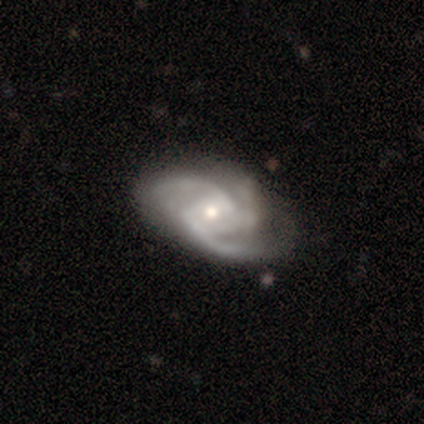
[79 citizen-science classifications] Overall: featured or disk (96%). Edge-on disk: no (97%). Bar: no (51%; weak 38%). Spiral arms: yes (100%). Spiral arm count: 3 (72%). Spiral winding: medium (59%; tight 22%). Bulge size: small (54%; moderate 42%). Merging: none (41%; minor disturbance 15%).